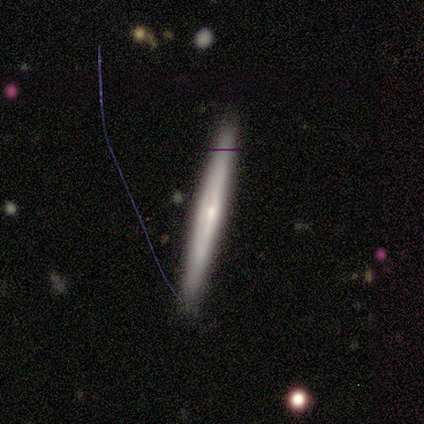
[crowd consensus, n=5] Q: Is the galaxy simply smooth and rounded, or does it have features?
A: featured or disk — 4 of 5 (80%).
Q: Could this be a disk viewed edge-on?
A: yes — 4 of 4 (100%).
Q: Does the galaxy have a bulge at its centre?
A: none — 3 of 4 (75%).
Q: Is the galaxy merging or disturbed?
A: none — 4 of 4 (100%).